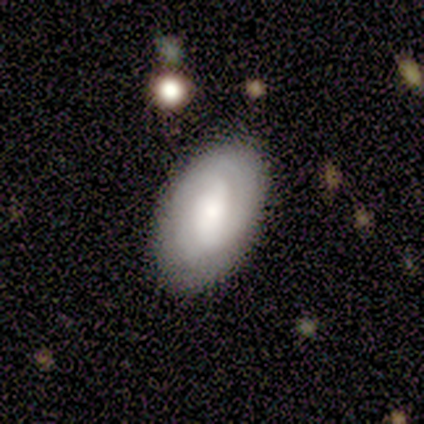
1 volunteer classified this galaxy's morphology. Smooth or featured?
  - smooth: 100% *
  - featured or disk: 0%
  - star or artifact: 0%
How rounded?
  - in between: 100% *
  - round: 0%
  - cigar-shaped: 0%
Merging?
  - none: 100% *
  - minor disturbance: 0%
  - major disturbance: 0%
  - merger: 0%